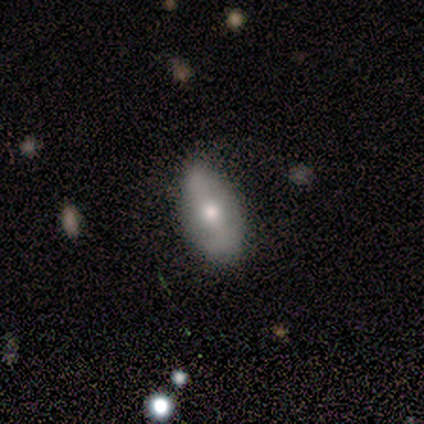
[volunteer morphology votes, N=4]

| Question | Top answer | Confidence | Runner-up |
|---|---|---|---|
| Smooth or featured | smooth | 50% | tied: featured or disk (50%) |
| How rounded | round | 50% | tied: in between (50%) |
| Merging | minor disturbance | 50% | none (25%) |